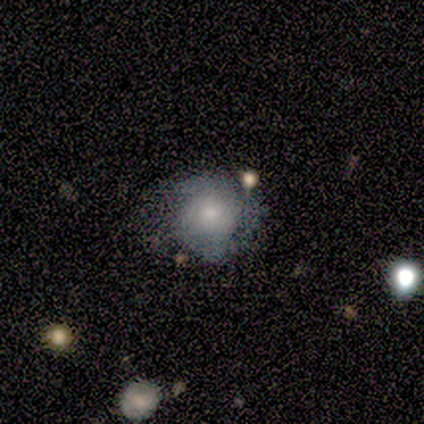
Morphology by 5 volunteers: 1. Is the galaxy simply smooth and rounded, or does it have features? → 60% featured or disk, 40% smooth, 0% star or artifact.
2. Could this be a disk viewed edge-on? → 100% no, 0% yes.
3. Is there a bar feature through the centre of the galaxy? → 67% no, 33% weak, 0% strong.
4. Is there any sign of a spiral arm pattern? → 67% yes, 33% no.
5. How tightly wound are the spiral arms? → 50% medium (tied), 50% loose (tied), 0% tight.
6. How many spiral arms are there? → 100% 2, 0% 1, 0% 3, 0% 4, 0% more than 4, 0% can't tell.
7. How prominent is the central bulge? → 67% small, 33% moderate, 0% dominant, 0% large, 0% none.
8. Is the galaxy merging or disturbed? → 60% none, 40% minor disturbance, 0% major disturbance, 0% merger.